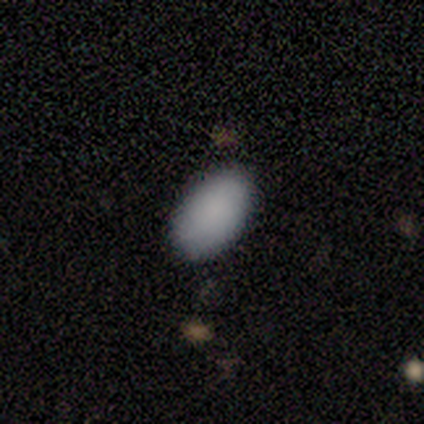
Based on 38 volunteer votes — smooth-or-featured: smooth: 89% | featured or disk: 5% | star or artifact: 5%
  how-rounded: in between: 91% | round: 6% | cigar-shaped: 3%
  merging: none: 89% | minor disturbance: 11% | major disturbance: 0% | merger: 0%